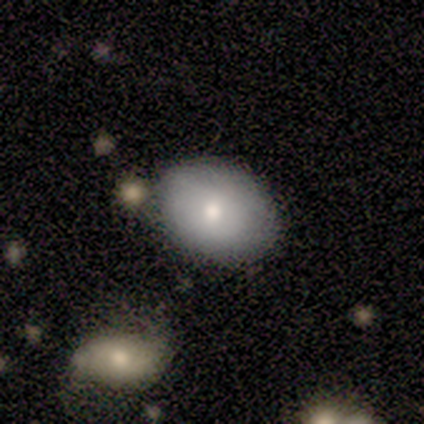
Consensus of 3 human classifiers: A smooth galaxy with no disk features (100%) that is in between round and cigar-shaped (100%). Merging: none (100%).